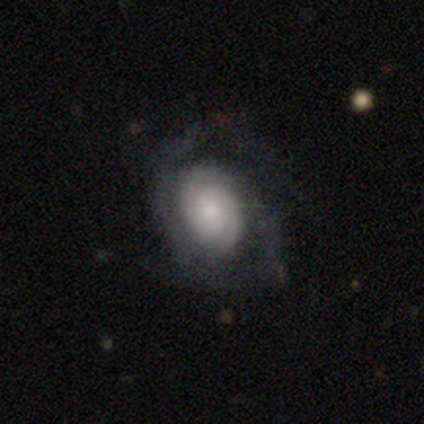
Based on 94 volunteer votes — Smooth or featured: featured or disk — 70% (smooth — 23%)
Edge-on disk: no — 97% (yes — 3%)
Bar: no — 70% (weak — 27%)
Spiral arms: yes — 97% (no — 3%)
Spiral winding: tight — 68% (medium — 16%)
Spiral arm count: 2 — 66% (can't tell — 18%)
Bulge size: small — 45% (moderate — 30%)
Merging: none — 60% (major disturbance — 27%)